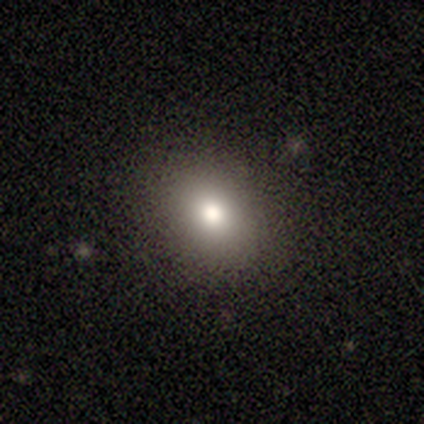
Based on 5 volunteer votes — Smooth or featured? smooth (80%)
How rounded? in between (75%)
Merging? none (100%)